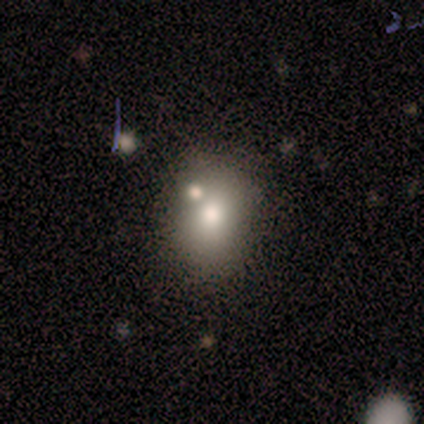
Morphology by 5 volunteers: smooth_or_featured: smooth (p=0.80) [alt: star or artifact p=0.20]
how_rounded: round (p=0.75) [alt: in between p=0.25]
merging: none (p=0.75) [alt: merger p=0.25]